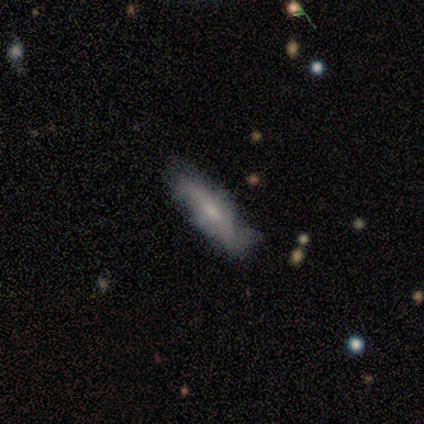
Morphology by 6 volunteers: A featured or disk galaxy (67%) with no bar (67%), 2 (67%) loose (100%) spiral arms (100%) and a moderate central bulge (67%).

Vote fractions:
- Smooth or featured? featured or disk: 67% / smooth: 33% / star or artifact: 0%
- Edge-on disk? no: 75% / yes: 25%
- Bar? no: 67% / strong: 33% / weak: 0%
- Spiral arms? yes: 100% / no: 0%
- Spiral winding? loose: 100% / tight: 0% / medium: 0%
- Spiral arm count? 2: 67% / can't tell: 33% / 1: 0% / 3: 0% / 4: 0% / more than 4: 0%
- Bulge size? moderate: 67% / small: 33% / dominant: 0% / large: 0% / none: 0%
- Merging? none: 67% / minor disturbance: 17% / major disturbance: 17% / merger: 0%